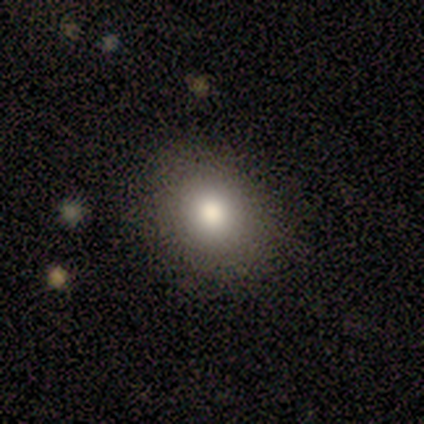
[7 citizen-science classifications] Smooth or featured: smooth — 86% (featured or disk — 14%)
How rounded: in between — 67% (round — 33%)
Merging: none — 86% (minor disturbance — 14%)